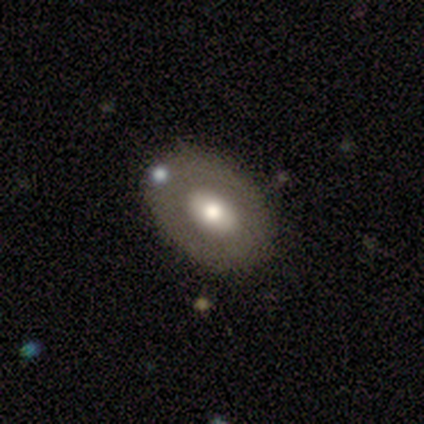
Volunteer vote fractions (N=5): A featured or disk galaxy (60%) with no bar (67%), no spiral arms (100%) and a moderate central bulge (67%). Merging: none (100%).